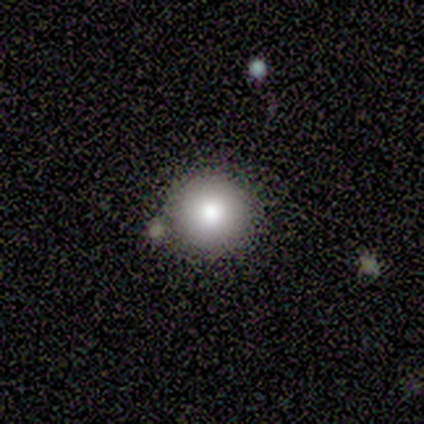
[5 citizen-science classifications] Smooth or featured? smooth (40%, tied with star or artifact)
How rounded? round (100%)
Merging? none (33%, tied with minor disturbance and merger)